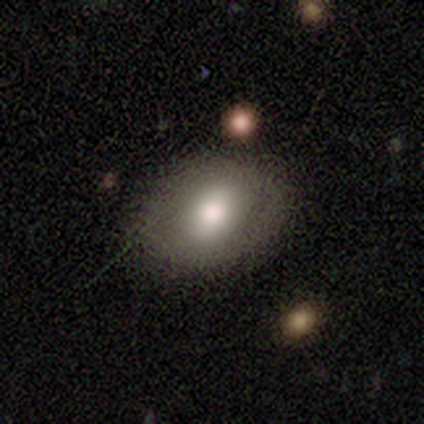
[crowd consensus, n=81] smooth-or-featured: smooth: 68% | featured or disk: 25% | star or artifact: 7%
  how-rounded: in between: 65% | round: 35% | cigar-shaped: 0%
  merging: none: 45% | merger: 8% | minor disturbance: 5% | major disturbance: 0%